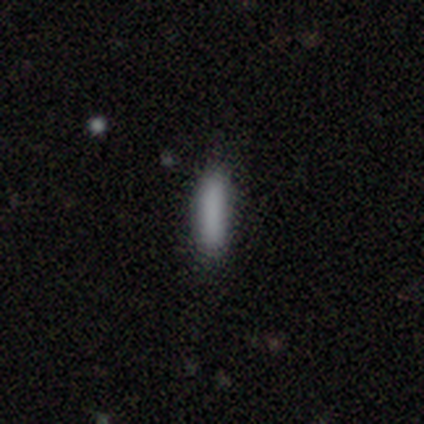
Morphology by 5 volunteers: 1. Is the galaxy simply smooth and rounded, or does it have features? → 80% smooth, 20% star or artifact, 0% featured or disk.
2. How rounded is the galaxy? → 100% cigar-shaped, 0% round, 0% in between.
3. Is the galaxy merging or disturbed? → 75% none, 25% minor disturbance, 0% major disturbance, 0% merger.